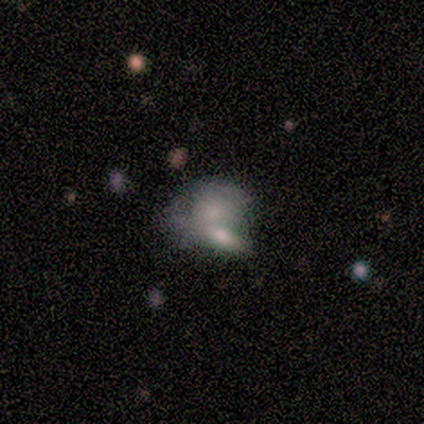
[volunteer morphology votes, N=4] Volunteers were most divided on "how rounded" (2-way tie): round: 50%, in between: 50%, cigar-shaped: 0%. More confident: smooth or featured — smooth (100%); merging — none (75%).